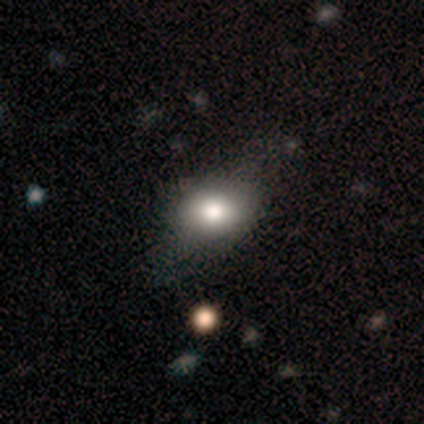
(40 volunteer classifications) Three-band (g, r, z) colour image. It shows a smooth galaxy with no disk features (78%) that is in between round and cigar-shaped (74%). Merging: none (46%).